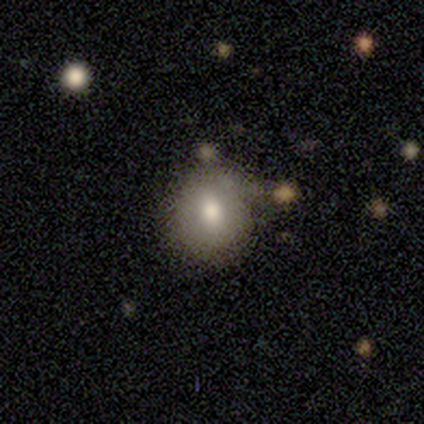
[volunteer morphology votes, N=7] Smooth or featured?
  - smooth: 86% *
  - star or artifact: 14%
  - featured or disk: 0%
How rounded?
  - round: 67% *
  - in between: 33%
  - cigar-shaped: 0%
Merging?
  - none: 100% *
  - minor disturbance: 0%
  - major disturbance: 0%
  - merger: 0%